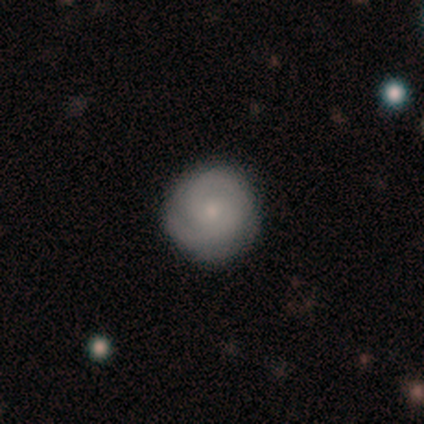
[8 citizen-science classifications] Volunteers were most divided on "bar": no: 50%, weak: 33%, strong: 17%. More confident: edge-on disk — no (100%); spiral arms — yes (100%); bulge size — small (100%); merging — none (100%); smooth or featured — featured or disk (75%); spiral winding — tight (67%); spiral arm count — can't tell (50%).